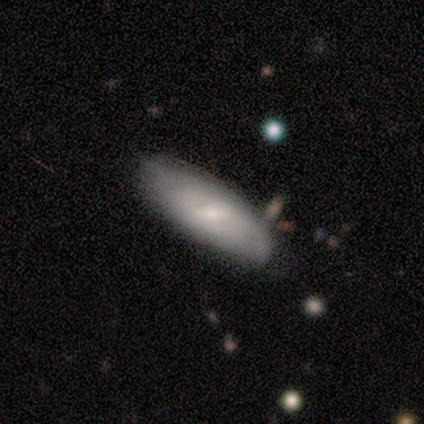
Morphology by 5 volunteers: Smooth or featured? featured or disk (60%)
Edge-on disk? no (67%)
Bar? weak (100%)
Spiral arms? yes (100%)
Spiral winding? medium (50%, tied with loose)
Spiral arm count? 1 (50%, tied with can't tell)
Bulge size? small (100%)
Merging? none (80%)